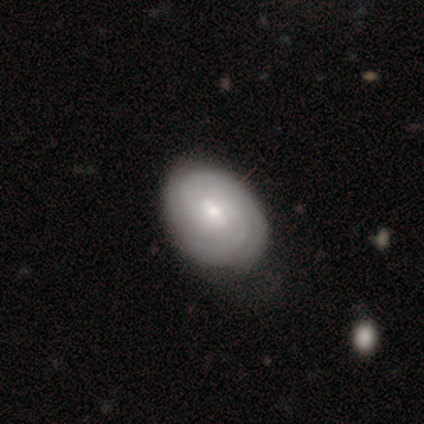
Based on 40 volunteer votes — This appears to be a featured or disk galaxy (62%) with no bar (50%), 2 (42%, tied with can't tell) tight (62%) spiral arms (100%) and a moderate central bulge (50%). Merging: none (45%).